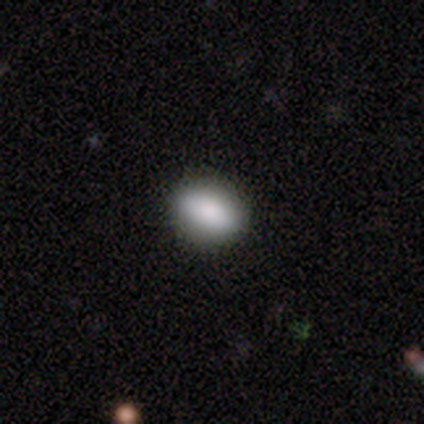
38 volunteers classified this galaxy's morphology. Smooth or featured? smooth (79%)
How rounded? in between (83%)
Merging? none (92%)